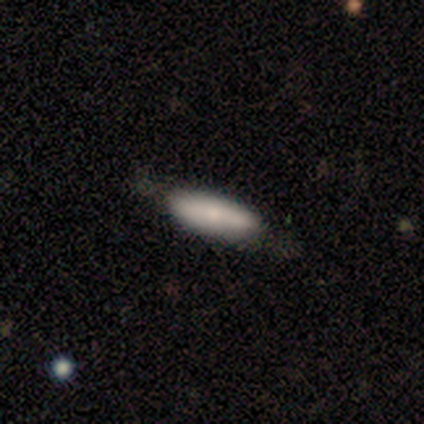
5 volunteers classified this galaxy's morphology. Q: Smooth or featured?
A: smooth (100%)
Q: How rounded?
A: in between (80%); runner-up: cigar-shaped (20%)
Q: Merging?
A: none (80%); runner-up: minor disturbance (20%)